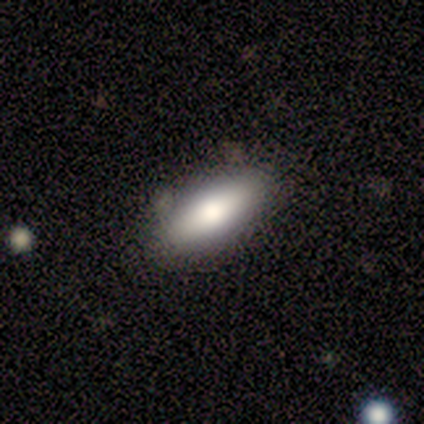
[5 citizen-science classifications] Morphology: type=smooth (60%); roundness=in between (67%); merging=none (80%).